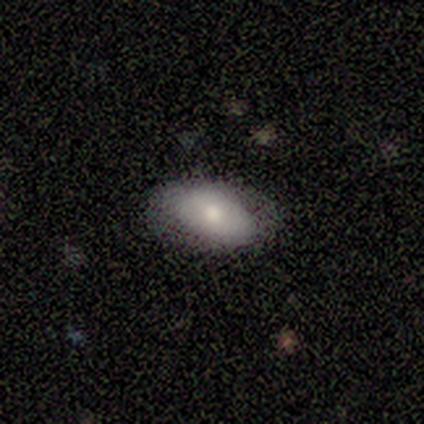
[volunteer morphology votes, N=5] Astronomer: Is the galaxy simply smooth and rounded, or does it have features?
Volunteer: smooth — 80%.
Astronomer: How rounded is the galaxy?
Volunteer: in between — 100%.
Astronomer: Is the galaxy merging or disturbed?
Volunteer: none — 60%.